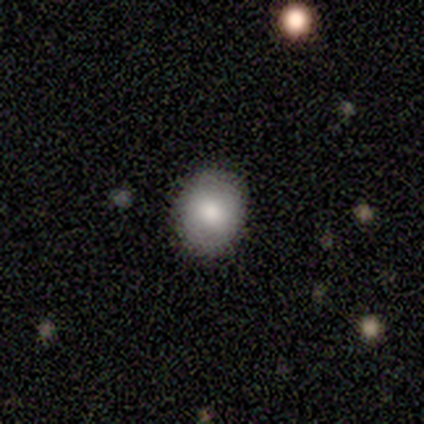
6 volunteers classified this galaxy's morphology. A smooth galaxy with no disk features (100%) that is round (50%, tied with in between). Merging: none (100%).